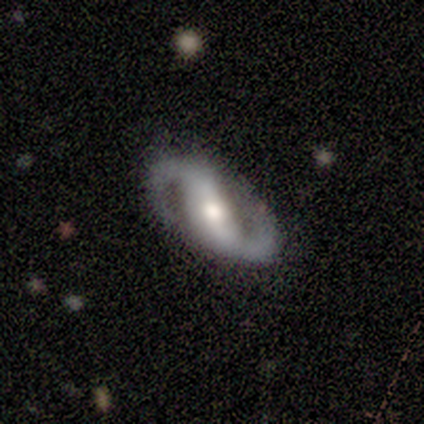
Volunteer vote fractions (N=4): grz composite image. It shows a featured or disk galaxy (75%) with a strong bar (50%, tied with no), 2 (100%) medium (100%) spiral arms (50%, tied with no) and a moderate central bulge (50%, tied with small). Merging: none (75%).